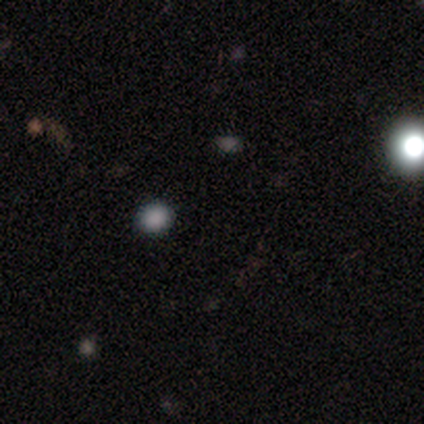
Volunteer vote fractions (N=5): smooth-or-featured: star or artifact: 60% | smooth: 40% | featured or disk: 0%